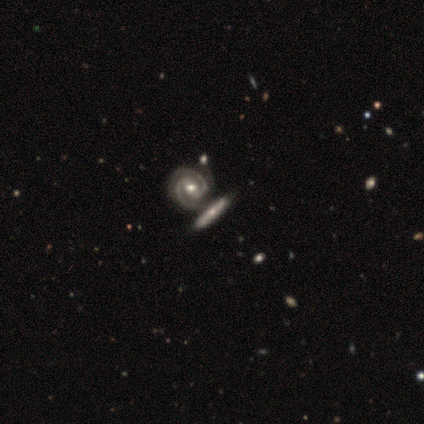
Smooth or featured? 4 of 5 (80%) said featured or disk. Edge-on disk? 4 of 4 (100%) said no. Bar? 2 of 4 (50%) said strong. Spiral arms? 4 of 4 (100%) said yes. Spiral winding? 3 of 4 (75%) said tight. Spiral arm count? 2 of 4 (50%) said 2. Bulge size? 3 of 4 (75%) said moderate. Merging? 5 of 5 (100%) said none.